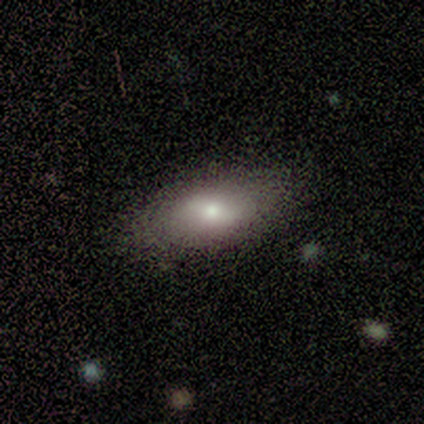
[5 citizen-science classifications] Volunteers were most divided on "smooth or featured": smooth: 80%, featured or disk: 20%, star or artifact: 0%. More confident: how rounded — in between (100%); merging — none (100%).